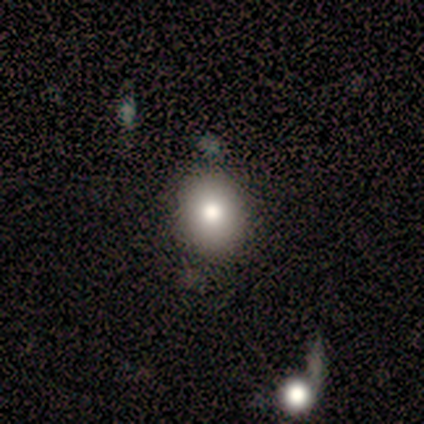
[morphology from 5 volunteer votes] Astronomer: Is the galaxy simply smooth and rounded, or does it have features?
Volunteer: smooth — 100%.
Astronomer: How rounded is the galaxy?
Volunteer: round — 80%.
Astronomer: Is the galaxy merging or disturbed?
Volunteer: none — 80%.